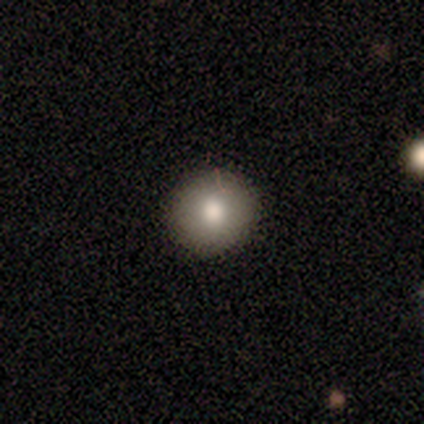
Overall: smooth (67%). How rounded: round (100%). Merging: none (80%).